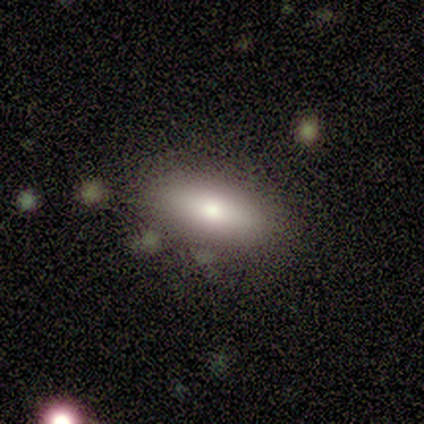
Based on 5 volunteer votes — smooth-or-featured: smooth: 40% (tied) | star or artifact: 40% (tied) | featured or disk: 20%
  how-rounded: in between: 100% | round: 0% | cigar-shaped: 0%
  merging: none: 100% | minor disturbance: 0% | major disturbance: 0% | merger: 0%